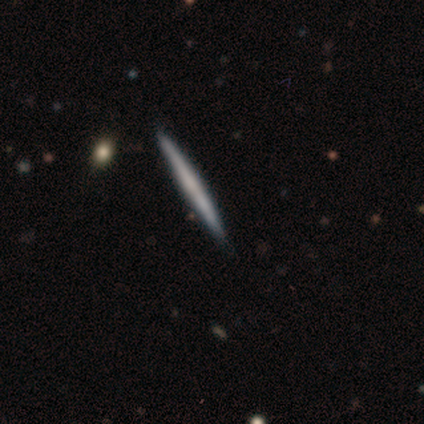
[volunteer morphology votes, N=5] Smooth or featured: smooth — 60% (featured or disk — 40%)
How rounded: cigar-shaped — 100%
Merging: none — 100%